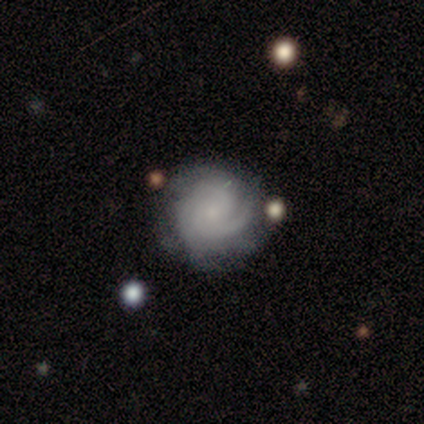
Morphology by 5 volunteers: smooth_or_featured: featured or disk (p=0.80) [alt: smooth p=0.20]
disk_edge_on: no (p=1.00)
bar: no (p=0.75) [alt: weak p=0.25]
has_spiral_arms: yes (p=1.00)
spiral_winding: tight (p=0.75) [alt: medium p=0.25]
spiral_arm_count: 3 (p=0.50) [alt: 2 p=0.25]
bulge_size: none (p=0.50) [alt: moderate p=0.25]
merging: none (p=0.60) [alt: minor disturbance p=0.20]